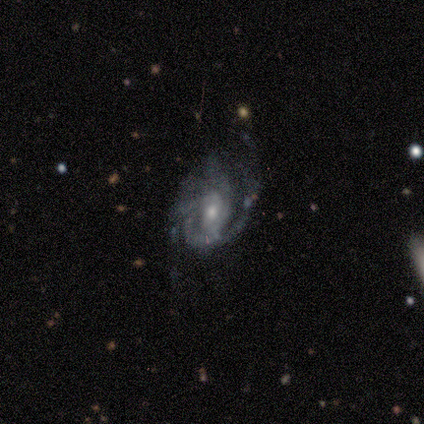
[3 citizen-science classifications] This appears to be a featured or disk galaxy (67%) with a weak bar (50%, tied with no), 1 (50%, tied with 2) tight (50%, tied with medium) spiral arms (100%) and a dominant central bulge (50%, tied with small). Merging: minor disturbance (67%).